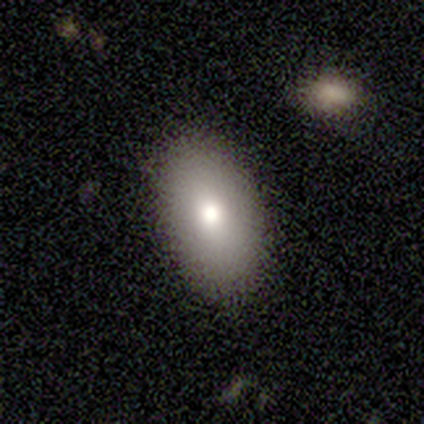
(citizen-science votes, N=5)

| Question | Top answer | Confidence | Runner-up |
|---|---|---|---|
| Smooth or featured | smooth | 80% | star or artifact (20%) |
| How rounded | in between | 75% | round (25%) |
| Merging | none | 100% | — |